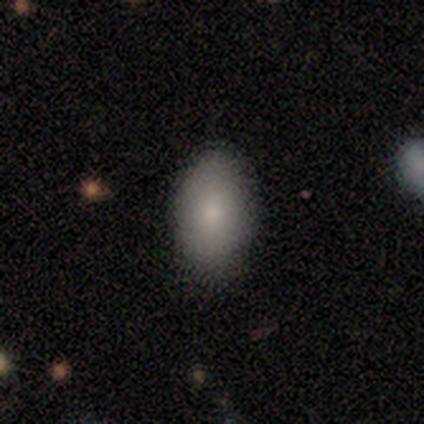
A smooth galaxy with no disk features (82%) that is in between round and cigar-shaped (94%). Merging: none (83%).